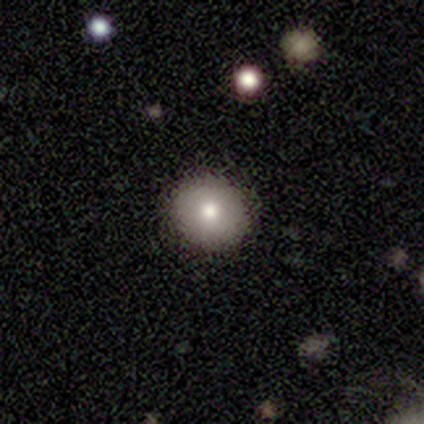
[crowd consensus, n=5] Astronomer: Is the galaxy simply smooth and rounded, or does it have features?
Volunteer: smooth — 80%.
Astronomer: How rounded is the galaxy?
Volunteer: round — 100%.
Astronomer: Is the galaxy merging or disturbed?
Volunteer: none — 80%.